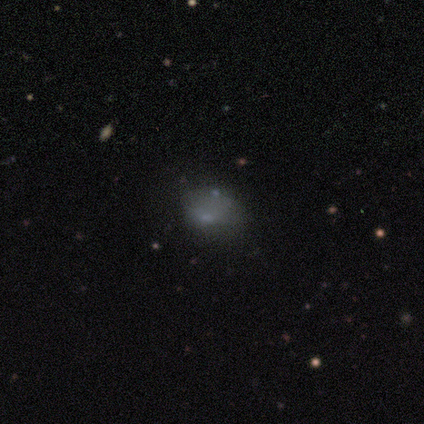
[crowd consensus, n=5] Morphology: type=star or artifact (60%).